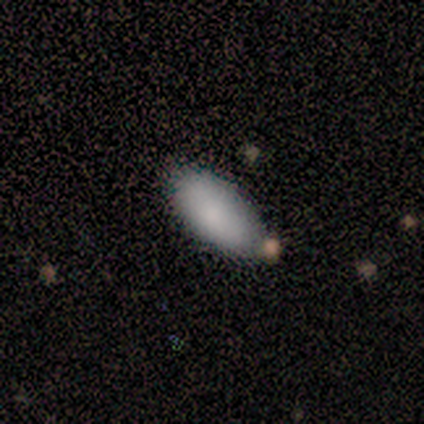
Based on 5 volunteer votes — smooth_or_featured: smooth (p=1.00)
how_rounded: in between (p=1.00)
merging: none (p=0.60) [alt: minor disturbance p=0.20]